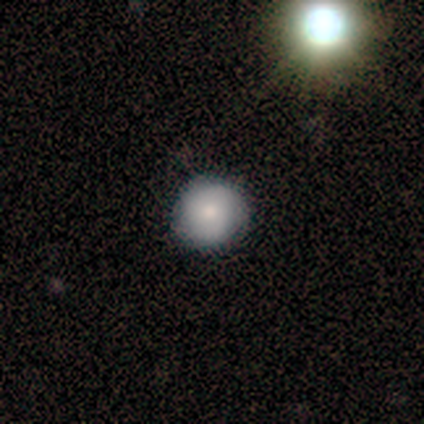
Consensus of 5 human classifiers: Smooth or featured? 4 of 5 (80%) said smooth. How rounded? 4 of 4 (100%) said round. Merging? 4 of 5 (80%) said none.